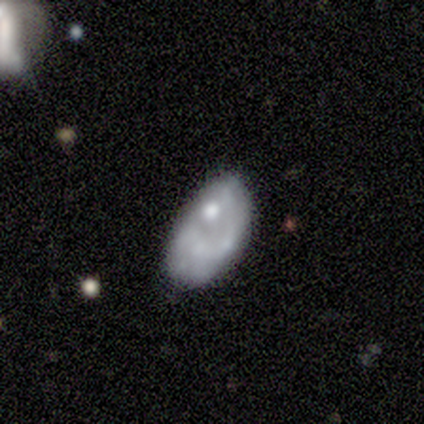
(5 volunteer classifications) Q: Smooth or featured?
A: smooth (40%); tied with: featured or disk (40%)
Q: How rounded?
A: in between (100%)
Q: Merging?
A: minor disturbance (50%); runner-up: none (25%)